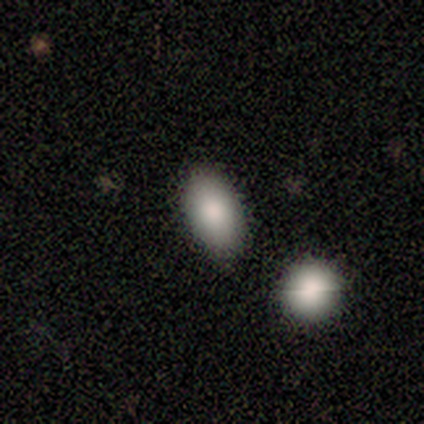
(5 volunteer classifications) Smooth or featured: smooth — 100%
How rounded: in between — 60% (round — 40%)
Merging: none — 80% (merger — 20%)